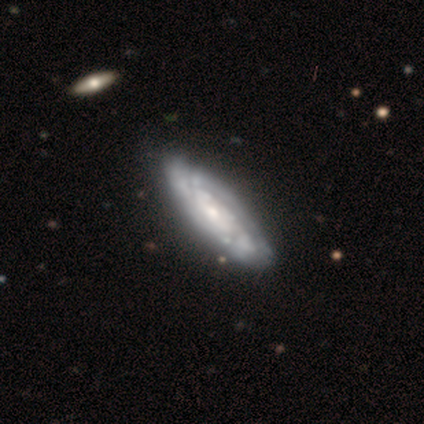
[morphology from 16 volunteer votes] Smooth or featured? 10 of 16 (62%) said featured or disk. Edge-on disk? 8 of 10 (80%) said no. Bar? 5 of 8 (62%) said no. Spiral arms? 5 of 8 (62%) said yes. Spiral winding? 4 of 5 (80%) said tight. Spiral arm count? 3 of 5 (60%) said can't tell. Bulge size? 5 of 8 (62%) said small. Merging? 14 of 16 (88%) said none.